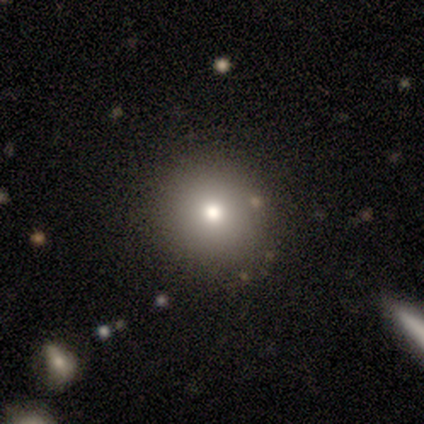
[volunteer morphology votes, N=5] Smooth or featured: smooth — 40% (tied with star or artifact — 40%)
How rounded: round — 100%
Merging: none — 67% (minor disturbance — 33%)